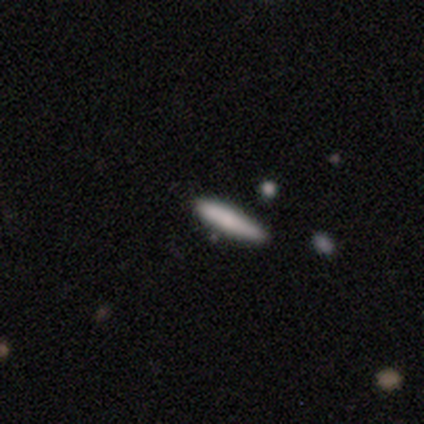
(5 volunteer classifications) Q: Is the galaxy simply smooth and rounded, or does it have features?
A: smooth — 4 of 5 (80%).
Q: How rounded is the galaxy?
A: cigar-shaped — 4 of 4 (100%).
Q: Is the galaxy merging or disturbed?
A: minor disturbance — 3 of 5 (60%).